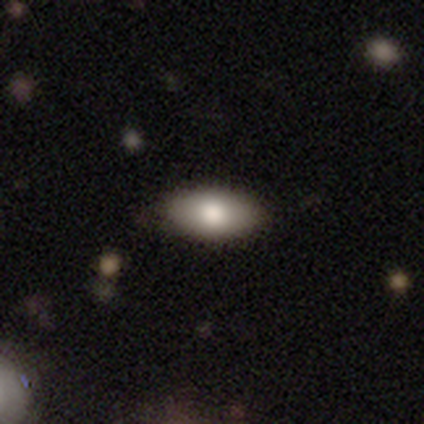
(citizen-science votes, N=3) This appears to be a smooth galaxy with no disk features (67%) that is in between round and cigar-shaped (100%). Merging: none (100%).